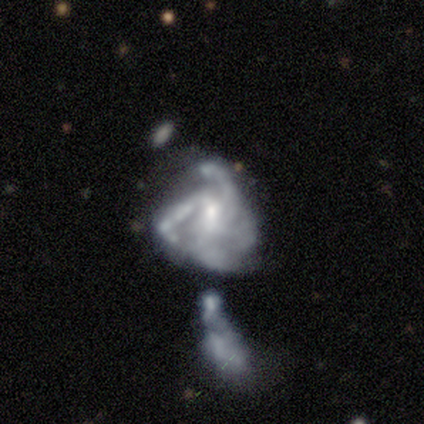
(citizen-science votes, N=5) A featured or disk galaxy (100%) with no bar (80%), 3 (40%, tied with can't tell) medium (60%) spiral arms (100%) and a moderate central bulge (40%, tied with small).

Vote fractions:
- Smooth or featured? featured or disk: 100% / smooth: 0% / star or artifact: 0%
- Edge-on disk? no: 100% / yes: 0%
- Bar? no: 80% / weak: 20% / strong: 0%
- Spiral arms? yes: 100% / no: 0%
- Spiral winding? medium: 60% / tight: 20% / loose: 20%
- Spiral arm count? 3: 40% (tied) / can't tell: 40% (tied) / 4: 20% / 1: 0% / 2: 0% / more than 4: 0%
- Bulge size? moderate: 40% (tied) / small: 40% (tied) / none: 20% / dominant: 0% / large: 0%
- Merging? major disturbance: 80% / minor disturbance: 20% / none: 0% / merger: 0%